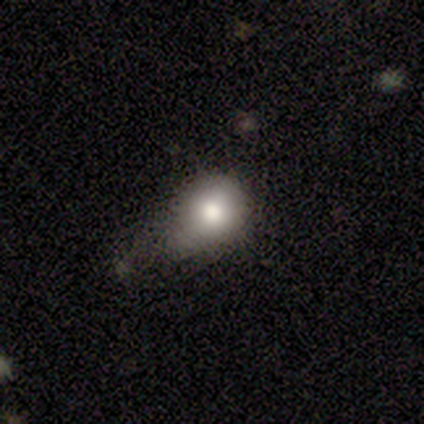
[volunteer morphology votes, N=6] Smooth or featured? 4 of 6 (67%) said smooth. How rounded? 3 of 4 (75%) said round. Merging? 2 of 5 (40%) said minor disturbance.